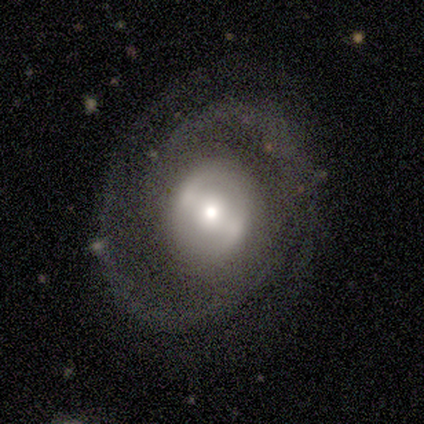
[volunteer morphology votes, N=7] Q: Smooth or featured?
A: featured or disk (100%)
Q: Edge-on disk?
A: no (100%)
Q: Bar?
A: no (57%); runner-up: weak (29%)
Q: Spiral arms?
A: yes (71%); runner-up: no (29%)
Q: Spiral winding?
A: tight (40%); tied with: medium (40%)
Q: Spiral arm count?
A: 2 (60%); runner-up: 3 (20%)
Q: Bulge size?
A: moderate (43%); runner-up: large (29%)
Q: Merging?
A: none (71%); runner-up: minor disturbance (14%)